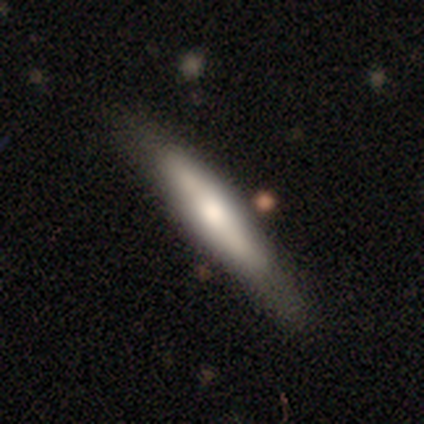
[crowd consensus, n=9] smooth_or_featured: smooth (p=0.89) [alt: featured or disk p=0.11]
how_rounded: cigar-shaped (p=0.75) [alt: in between p=0.25]
merging: none (p=0.67) [alt: minor disturbance p=0.22]